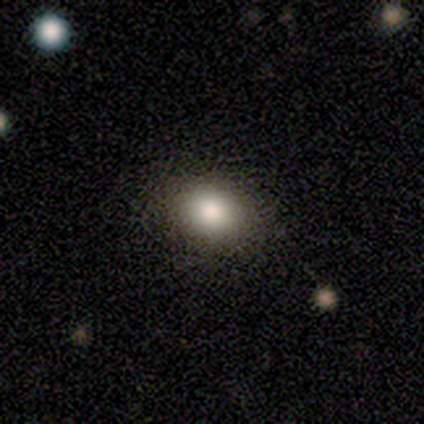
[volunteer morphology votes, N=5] smooth 80%, star or artifact 20%, featured or disk 0%. Down the decision tree: how rounded — round (50%, tied with in between); merging — none (100%).